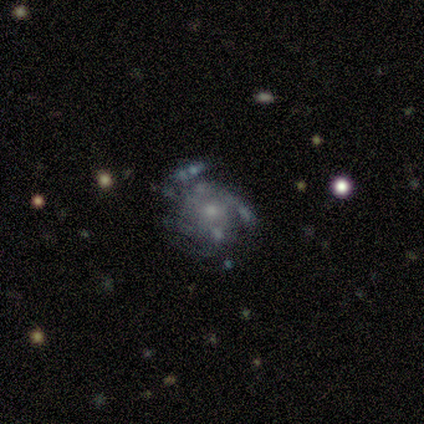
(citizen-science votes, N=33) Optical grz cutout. It shows a featured or disk galaxy (73%) with no bar (71%), medium (53%) spiral arms (79%) and a small central bulge (58%). Merging: none (67%).